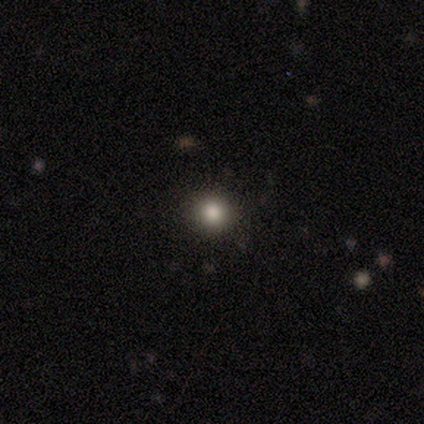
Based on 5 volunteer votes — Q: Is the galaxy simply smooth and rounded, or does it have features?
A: smooth — 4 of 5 (80%).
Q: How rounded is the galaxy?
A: round — 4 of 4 (100%).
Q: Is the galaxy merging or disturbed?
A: none — 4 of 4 (100%).